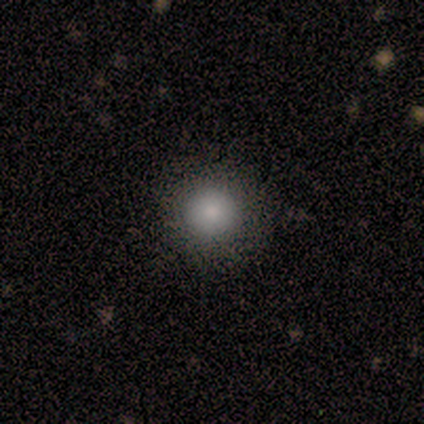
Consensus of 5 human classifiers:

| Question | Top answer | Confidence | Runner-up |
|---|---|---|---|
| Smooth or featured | smooth | 60% | featured or disk (20%) |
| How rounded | round | 100% | — |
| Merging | none | 75% | minor disturbance (25%) |